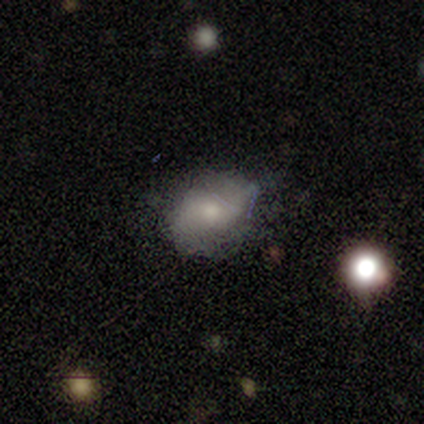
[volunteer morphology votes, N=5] Volunteers were most divided on "merging": minor disturbance: 60%, none: 20%, major disturbance: 20%, merger: 0%. More confident: smooth or featured — smooth (100%); how rounded — in between (80%).